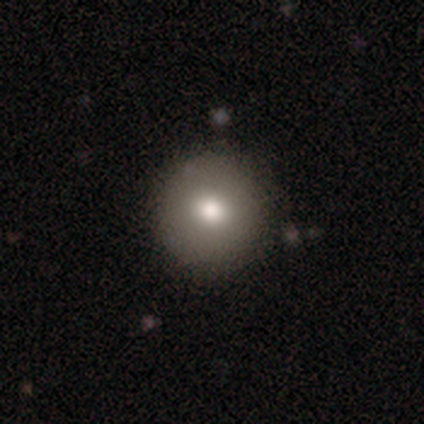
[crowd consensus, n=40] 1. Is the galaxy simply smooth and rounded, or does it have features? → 75% smooth, 15% featured or disk, 10% star or artifact.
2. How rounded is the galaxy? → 100% round, 0% in between, 0% cigar-shaped.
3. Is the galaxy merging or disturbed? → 97% none, 3% minor disturbance, 0% major disturbance, 0% merger.